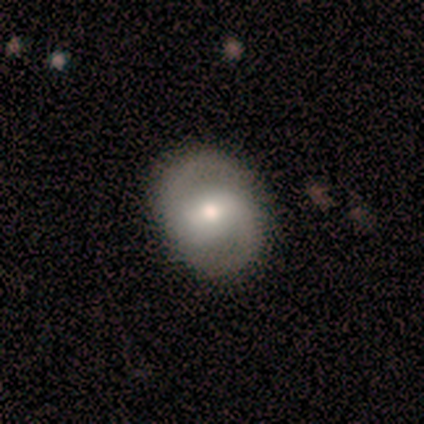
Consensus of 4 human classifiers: Smooth or featured?
  - smooth: 50% *
  - featured or disk: 25%
  - star or artifact: 25%
How rounded?
  - round: 50% * (tied)
  - in between: 50% * (tied)
  - cigar-shaped: 0%
Merging?
  - none: 100% *
  - minor disturbance: 0%
  - major disturbance: 0%
  - merger: 0%